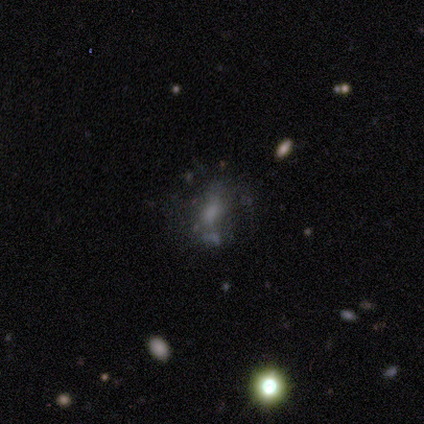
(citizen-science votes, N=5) featured or disk 80%, star or artifact 20%, smooth 0%. Down the decision tree: edge-on disk — no (75%); bar — no (100%); spiral arms — no (100%); bulge size — none (100%); merging — none (50%).